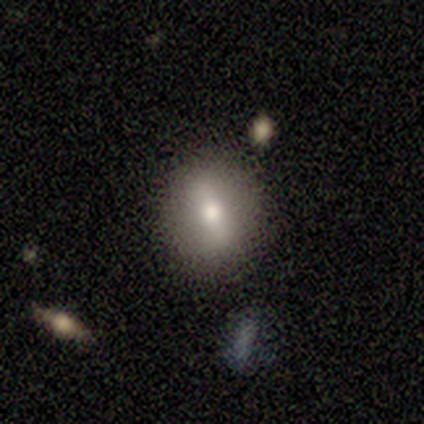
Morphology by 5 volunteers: This is marginally a smooth galaxy (40%, tied with star or artifact). How rounded: possibly round (50%, tied with cigar-shaped). Merging: likely none (67%).